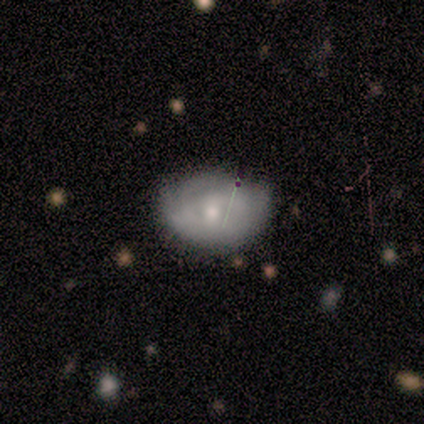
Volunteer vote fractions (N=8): This appears to be a smooth galaxy with no disk features (50%) that is in between round and cigar-shaped (100%). Merging: none (71%).